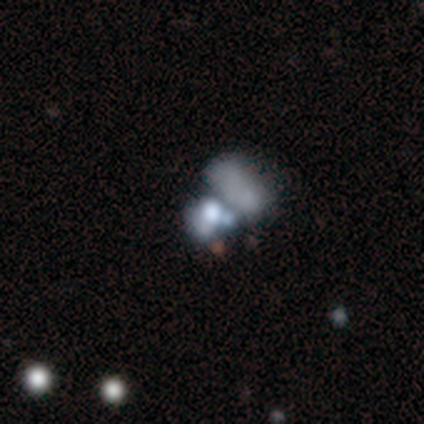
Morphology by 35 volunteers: smooth_or_featured: smooth (p=0.43) [tied with: featured or disk p=0.43]
how_rounded: in between (p=0.67) [alt: round p=0.33]
merging: merger (p=0.70)